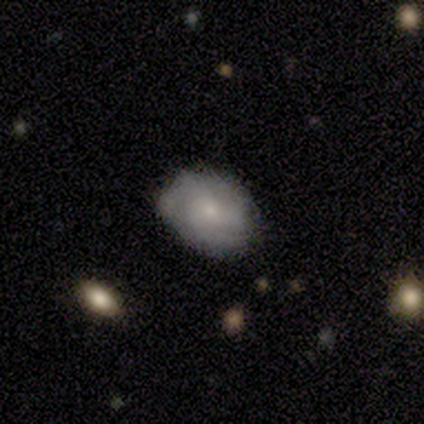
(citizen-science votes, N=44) Morphology: type=smooth (50%); roundness=in between (55%); merging=none (71%).